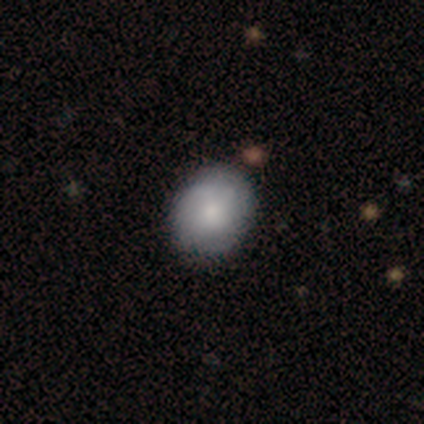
A smooth galaxy with no disk features (67%) that is round (54%).

Vote fractions:
- Smooth or featured? smooth: 67% / featured or disk: 33% / star or artifact: 0%
- How rounded? round: 54% / in between: 46% / cigar-shaped: 0%
- Merging? none: 56% / minor disturbance: 10% / merger: 3% / major disturbance: 0%